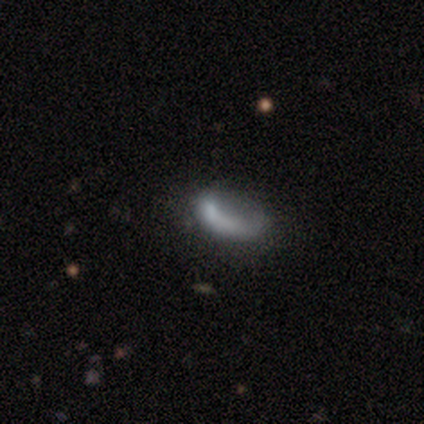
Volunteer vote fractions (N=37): Volunteers were most divided on "smooth or featured": smooth: 49%, featured or disk: 41%, star or artifact: 11%. Remaining: how rounded — in between (89%); merging — major disturbance (48%).